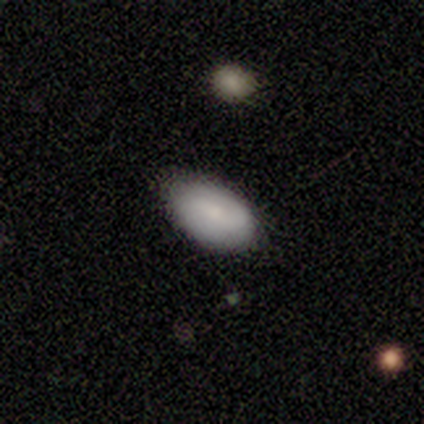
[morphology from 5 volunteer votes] This appears to be a featured or disk galaxy (60%) with a weak bar (50%, tied with no), 2 (100%) medium (50%, tied with loose) spiral arms (100%) and a moderate central bulge (50%, tied with small). Merging: minor disturbance (50%).